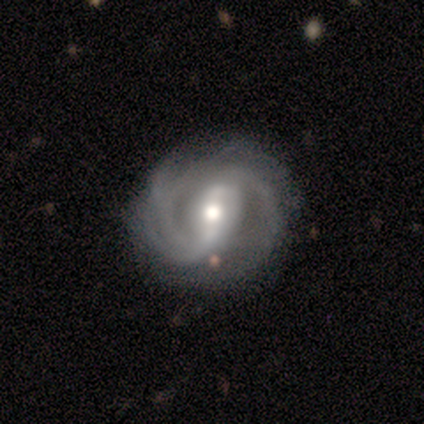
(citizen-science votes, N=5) Overall: featured or disk (100%). Edge-on disk: no (100%). Bar: strong (60%; no 40%). Spiral arms: yes (80%). Spiral arm count: 2 (75%). Spiral winding: tight (50%, tied with medium). Bulge size: moderate (80%). Merging: none (40%, tied with minor disturbance).